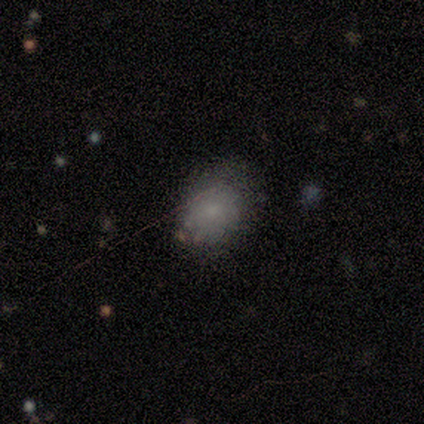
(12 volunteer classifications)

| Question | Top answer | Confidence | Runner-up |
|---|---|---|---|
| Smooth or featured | smooth | 58% | star or artifact (33%) |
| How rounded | in between | 57% | round (43%) |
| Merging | none | 50% | minor disturbance (38%) |